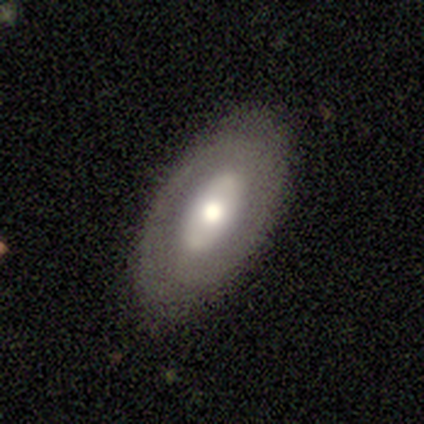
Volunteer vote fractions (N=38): smooth-or-featured: featured or disk: 55% | smooth: 42% | star or artifact: 3%
  disk-edge-on: no: 86% | yes: 14%
    bar: no: 61% | weak: 22% | strong: 17%
    has-spiral-arms: no: 78% | yes: 22%
    bulge-size: moderate: 61% | large: 33% | small: 6% | dominant: 0% | none: 0%
  merging: none: 86% | minor disturbance: 14% | major disturbance: 0% | merger: 0%